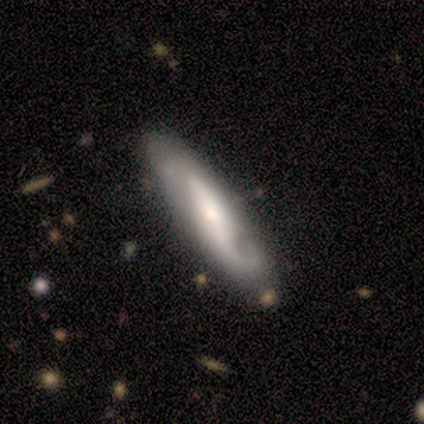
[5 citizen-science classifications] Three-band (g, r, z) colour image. It shows a featured or disk galaxy (100%) viewed edge-on (60%) with a rounded central bulge (67%). Merging: none (100%).